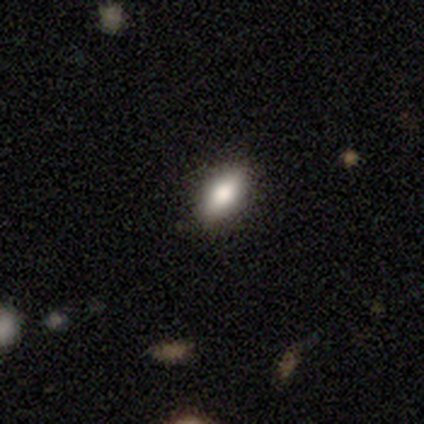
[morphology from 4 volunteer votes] Overall: smooth (75%). How rounded: in between (100%). Merging: none (100%).